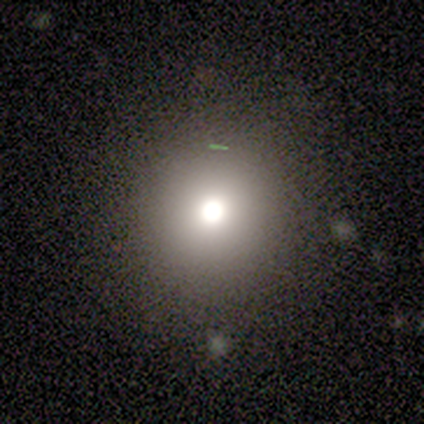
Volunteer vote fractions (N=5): Smooth or featured? smooth (60%)
How rounded? round (100%)
Merging? none (100%)